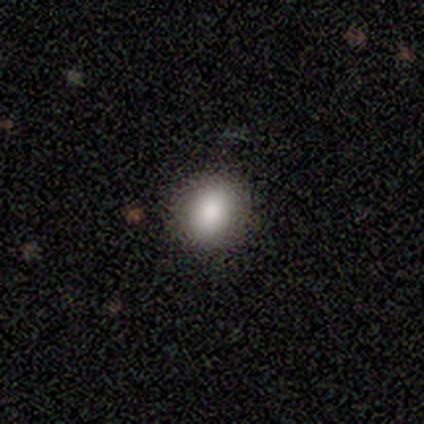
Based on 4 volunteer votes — Morphology: type=smooth (75%); roundness=in between (100%); merging=none (100%).